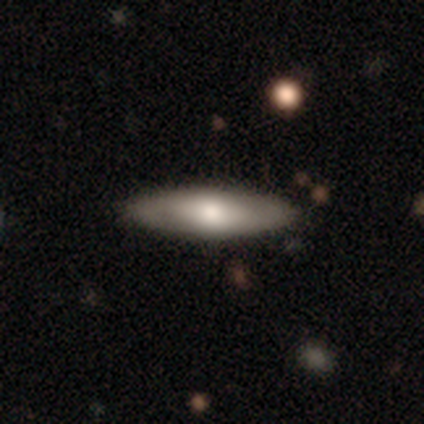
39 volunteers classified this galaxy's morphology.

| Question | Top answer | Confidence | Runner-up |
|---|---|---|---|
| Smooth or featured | featured or disk | 51% | smooth (49%) |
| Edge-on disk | no | 60% | yes (40%) |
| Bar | no | 67% | strong (25%) |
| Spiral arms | no | 58% | yes (42%) |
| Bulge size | moderate | 50% | large (33%) |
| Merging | none | 49% | minor disturbance (13%) |